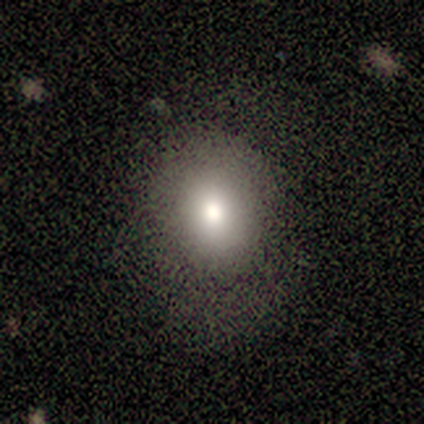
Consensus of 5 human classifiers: A smooth galaxy with no disk features (80%) that is round (75%). Merging: none (80%).